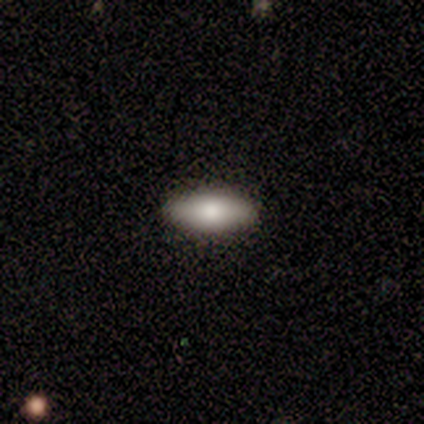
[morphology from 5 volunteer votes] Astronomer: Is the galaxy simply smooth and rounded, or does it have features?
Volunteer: smooth — 60% (runner-up: featured or disk, 40%).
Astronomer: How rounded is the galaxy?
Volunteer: in between — 67%.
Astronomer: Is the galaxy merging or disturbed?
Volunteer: none — 80%.